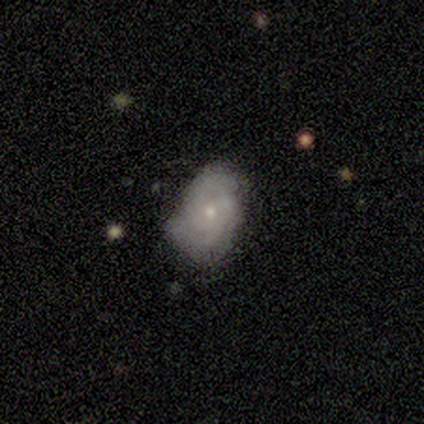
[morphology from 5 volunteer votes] Smooth or featured? featured or disk (80%)
Edge-on disk? no (100%)
Bar? no (75%)
Spiral arms? yes (100%)
Spiral winding? tight (50%, tied with medium)
Spiral arm count? can't tell (50%)
Bulge size? small (75%)
Merging? none (80%)